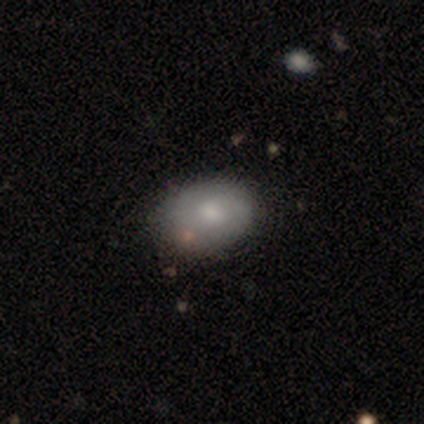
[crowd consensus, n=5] A smooth galaxy with no disk features (60%) that is in between round and cigar-shaped (100%). Merging: none (80%).